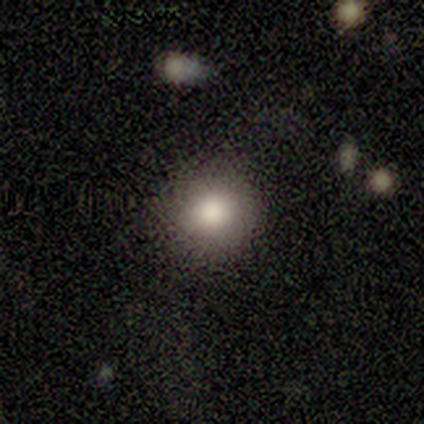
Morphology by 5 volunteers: Volunteers were most divided on "merging": none: 80%, minor disturbance: 20%, major disturbance: 0%, merger: 0%. More confident: smooth or featured — smooth (100%); how rounded — round (100%).